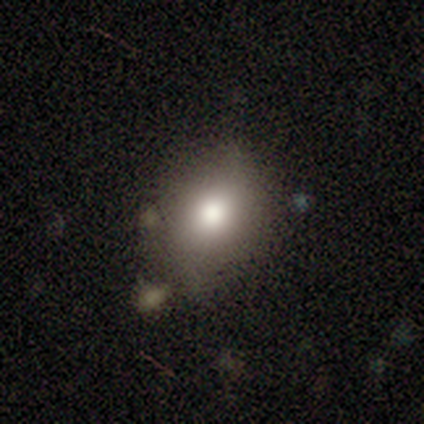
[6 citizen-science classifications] smooth-or-featured: smooth: 100% | featured or disk: 0% | star or artifact: 0%
  how-rounded: in between: 100% | round: 0% | cigar-shaped: 0%
  merging: none: 50% (tied) | minor disturbance: 50% (tied) | major disturbance: 0% | merger: 0%